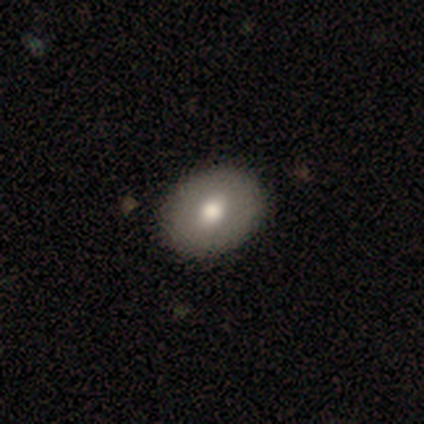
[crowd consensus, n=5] Smooth or featured? smooth (60%)
How rounded? round (67%)
Merging? none (100%)